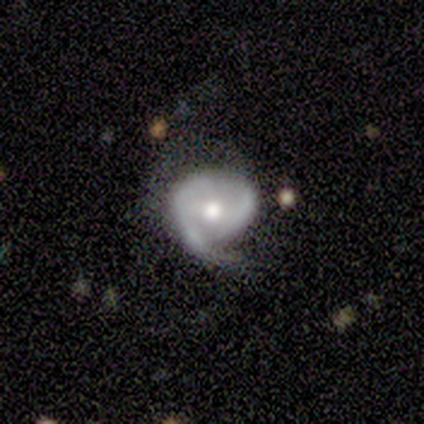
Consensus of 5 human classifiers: smooth_or_featured: featured or disk (p=1.00)
disk_edge_on: no (p=0.80) [alt: yes p=0.20]
bar: weak (p=0.50) [alt: strong p=0.25]
has_spiral_arms: yes (p=1.00)
spiral_winding: medium (p=0.75) [alt: loose p=0.25]
spiral_arm_count: 1 (p=0.50) [alt: 2 p=0.25]
bulge_size: moderate (p=1.00)
merging: minor disturbance (p=0.80) [alt: none p=0.20]